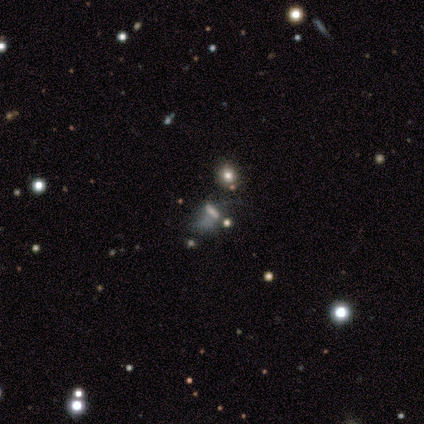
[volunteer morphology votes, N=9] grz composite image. It shows a featured or disk galaxy (44%) with no bar (75%), no spiral arms (75%) and no central bulge (100%). Merging: minor disturbance (43%, tied with major disturbance).